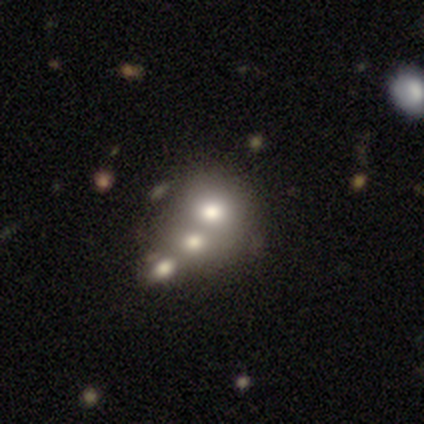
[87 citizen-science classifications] Smooth or featured? 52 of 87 (60%) said smooth. How rounded? 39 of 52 (75%) said round. Merging? 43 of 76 (57%) said merger.